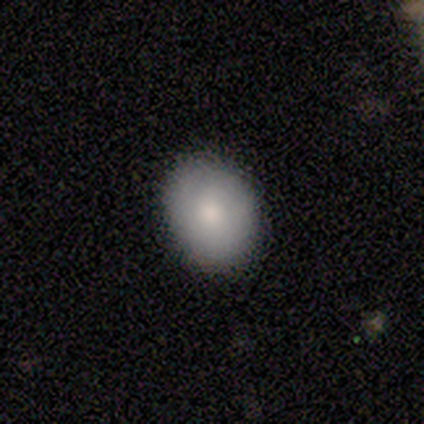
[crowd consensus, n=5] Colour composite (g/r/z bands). It shows a smooth galaxy with no disk features (40%, tied with featured or disk) that is round (50%, tied with in between). Merging: none (100%).